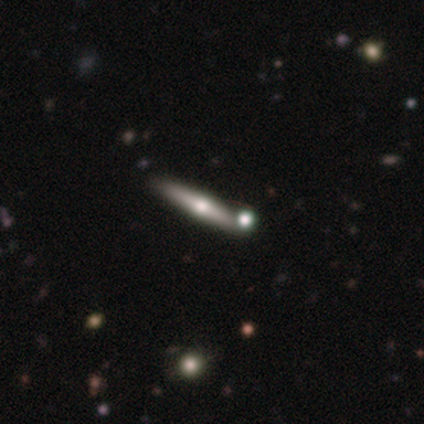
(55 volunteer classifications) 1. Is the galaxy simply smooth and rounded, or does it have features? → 76% featured or disk, 20% smooth, 4% star or artifact.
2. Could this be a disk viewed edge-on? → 95% yes, 5% no.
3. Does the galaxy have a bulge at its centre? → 100% rounded, 0% boxy, 0% none.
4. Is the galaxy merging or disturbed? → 68% none, 17% minor disturbance, 13% merger, 2% major disturbance.